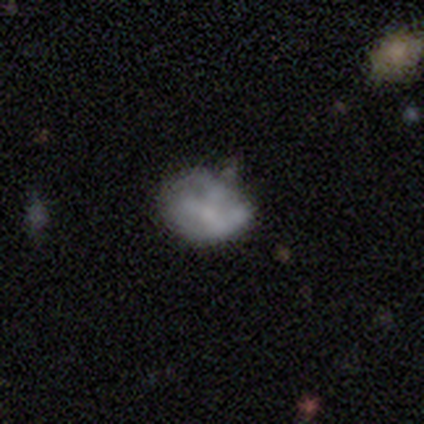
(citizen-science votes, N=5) Overall: featured or disk (60%; smooth 40%). Edge-on disk: no (100%). Bar: no (100%). Spiral arms: yes (67%; no 33%). Spiral arm count: can't tell (100%). Spiral winding: medium (50%, tied with loose). Bulge size: moderate (67%; none 33%). Merging: none (60%; minor disturbance 20%).